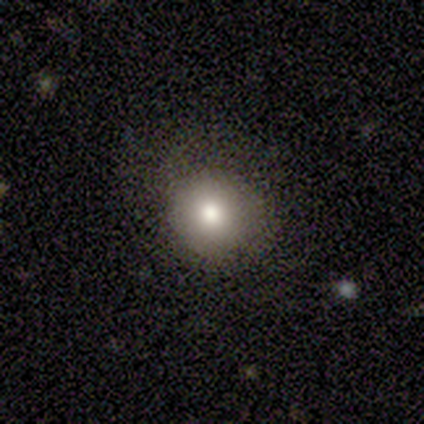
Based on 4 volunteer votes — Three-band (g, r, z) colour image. It shows a smooth galaxy with no disk features (75%) that is round (100%). Merging: none (50%, tied with minor disturbance).